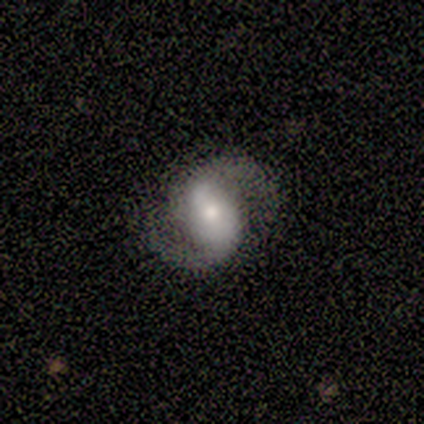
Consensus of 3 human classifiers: Smooth or featured? featured or disk (100%)
Edge-on disk? no (100%)
Bar? strong (67%)
Spiral arms? yes (100%)
Spiral winding? medium (67%)
Spiral arm count? 2 (100%)
Bulge size? moderate (100%)
Merging? none (100%)